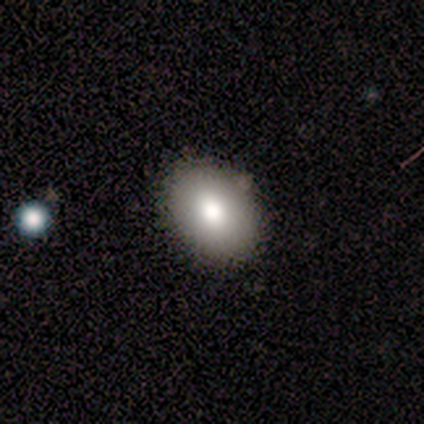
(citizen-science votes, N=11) smooth 82%, featured or disk 9%, star or artifact 9%. Down the decision tree: how rounded — in between (89%); merging — none (100%).